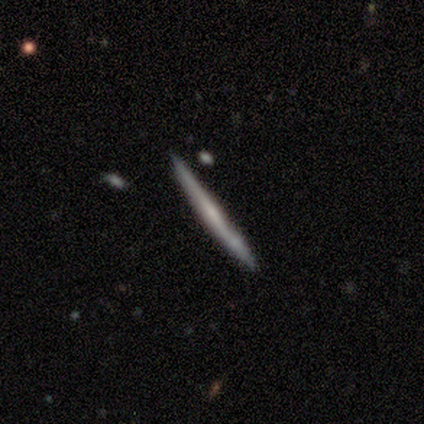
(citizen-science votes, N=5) Smooth or featured: featured or disk — 60% (smooth — 40%)
Edge-on disk: yes — 100%
Edge-on bulge: none — 67% (boxy — 33%)
Merging: none — 100%